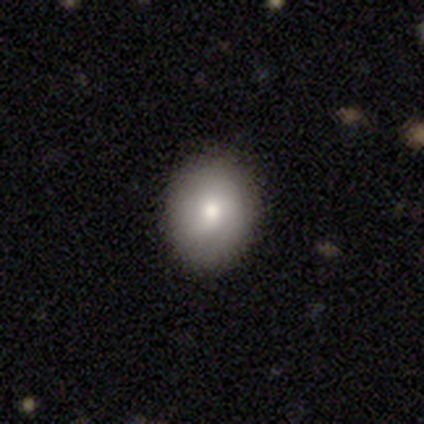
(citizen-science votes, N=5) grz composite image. It shows a smooth galaxy with no disk features (60%) that is in between round and cigar-shaped (67%). Merging: none (100%).